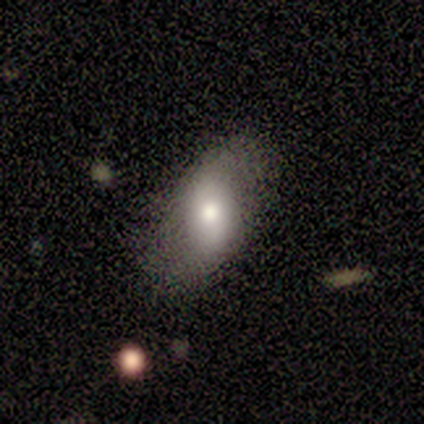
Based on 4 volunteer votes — Volunteers were most divided on "smooth or featured": smooth: 75%, featured or disk: 25%, star or artifact: 0%. More confident: how rounded — in between (100%); merging — none (75%).